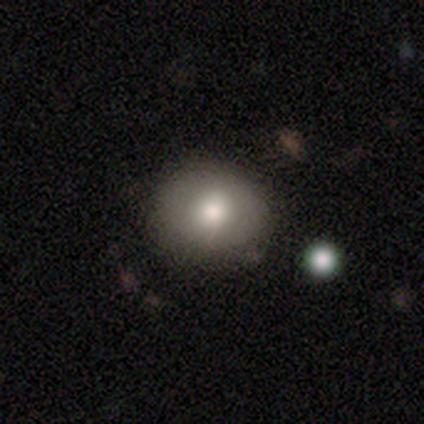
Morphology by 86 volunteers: smooth 74%, featured or disk 15%, star or artifact 10%. Down the decision tree: how rounded — round (72%); merging — none (82%).